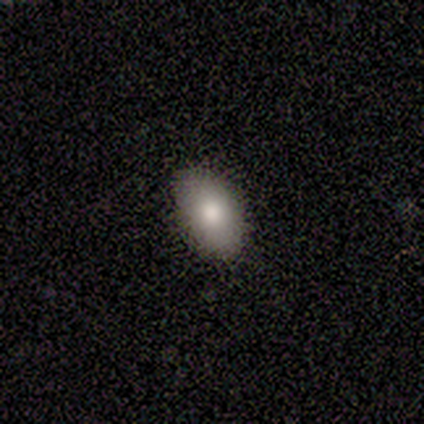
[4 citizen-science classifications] Morphology: type=smooth (100%); roundness=in between (100%); merging=none (100%).